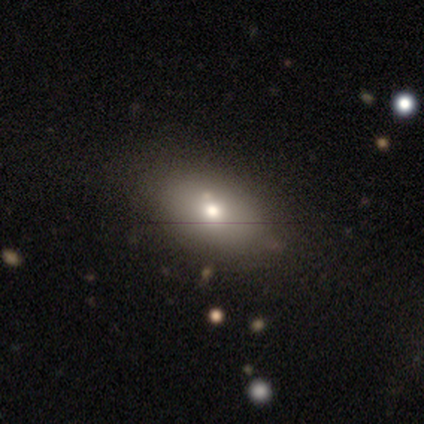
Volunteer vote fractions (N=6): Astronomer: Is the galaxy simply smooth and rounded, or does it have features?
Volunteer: smooth — 50% (runner-up: star or artifact, 33%).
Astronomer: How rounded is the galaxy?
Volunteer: in between — 67%.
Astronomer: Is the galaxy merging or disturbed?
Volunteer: none — 75%.